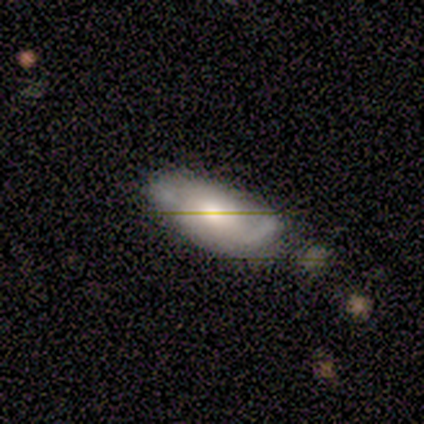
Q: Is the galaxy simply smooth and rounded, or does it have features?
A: smooth — 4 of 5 (80%).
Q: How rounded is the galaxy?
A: in between — 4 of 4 (100%).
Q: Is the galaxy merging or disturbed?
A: none — 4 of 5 (80%).